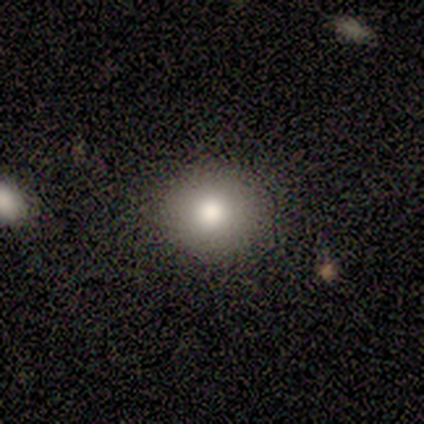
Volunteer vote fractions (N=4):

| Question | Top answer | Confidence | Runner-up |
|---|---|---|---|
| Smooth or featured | smooth | 50% | tied: star or artifact (50%) |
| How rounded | round | 100% | — |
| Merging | none | 100% | — |